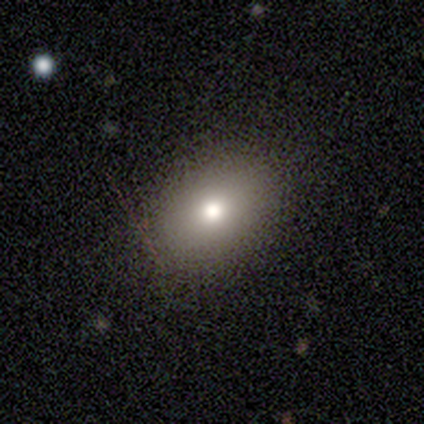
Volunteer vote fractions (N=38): Smooth or featured?
  - smooth: 63% *
  - featured or disk: 18%
  - star or artifact: 18%
How rounded?
  - in between: 92% *
  - round: 8%
  - cigar-shaped: 0%
Merging?
  - none: 97% *
  - minor disturbance: 3%
  - major disturbance: 0%
  - merger: 0%